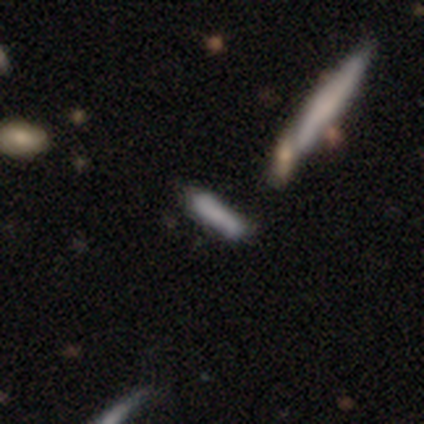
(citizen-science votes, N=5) A smooth galaxy with no disk features (40%, tied with featured or disk) that is in between round and cigar-shaped (50%, tied with cigar-shaped).

Vote fractions:
- Smooth or featured? smooth: 40% (tied) / featured or disk: 40% (tied) / star or artifact: 20%
- How rounded? in between: 50% (tied) / cigar-shaped: 50% (tied) / round: 0%
- Merging? none: 75% / minor disturbance: 25% / major disturbance: 0% / merger: 0%